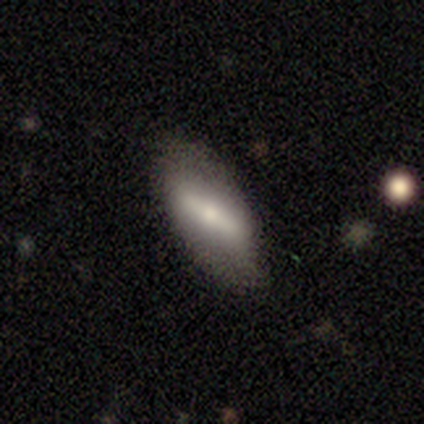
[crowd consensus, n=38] This is possibly a featured or disk galaxy (53%). It is likely not viewed edge-on (75%). Bar: clearly strong (80%). Spiral arm pattern: likely no (73%). Central bulge: likely moderate (60%). Merging: likely none (76%).